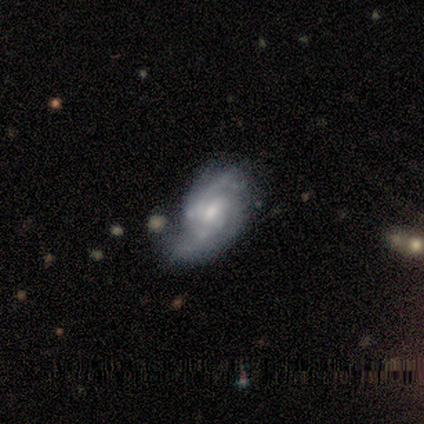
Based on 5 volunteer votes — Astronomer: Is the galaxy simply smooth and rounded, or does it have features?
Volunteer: featured or disk — 80%.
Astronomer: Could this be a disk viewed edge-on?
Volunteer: no — 100%.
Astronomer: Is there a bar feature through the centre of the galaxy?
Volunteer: weak — 75%.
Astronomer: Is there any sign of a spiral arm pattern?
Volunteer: yes — 100%.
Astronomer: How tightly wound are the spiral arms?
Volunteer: medium — 50%.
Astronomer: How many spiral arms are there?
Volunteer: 2 — 75%.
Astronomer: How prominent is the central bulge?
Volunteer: moderate — 50%, tied with small at 50%.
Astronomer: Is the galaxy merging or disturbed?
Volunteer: none — 80%.